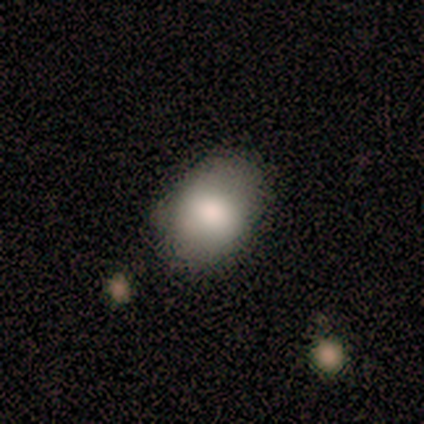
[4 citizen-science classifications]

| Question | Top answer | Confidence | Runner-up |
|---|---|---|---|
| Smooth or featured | smooth | 100% | — |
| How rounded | round | 50% | tied: in between (50%) |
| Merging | none | 75% | minor disturbance (25%) |